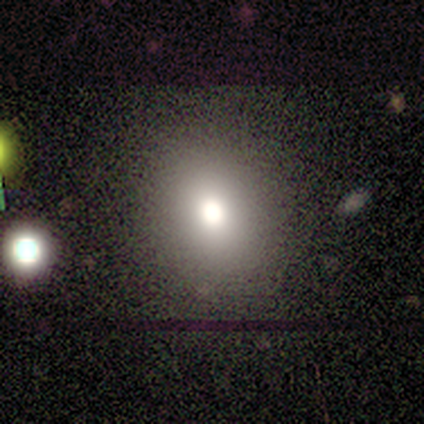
Morphology: type=smooth (60%); roundness=in between (67%); merging=none (100%).